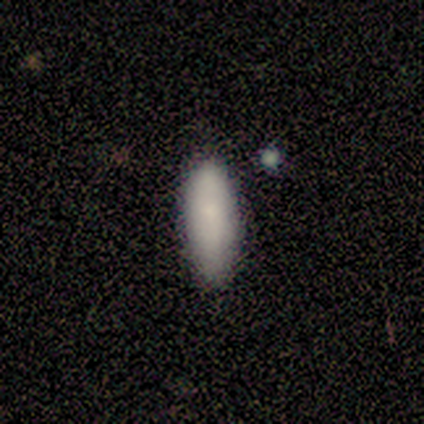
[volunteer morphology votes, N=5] This is clearly a smooth galaxy (100%). How rounded: likely in between (60%). Merging: clearly none (80%).